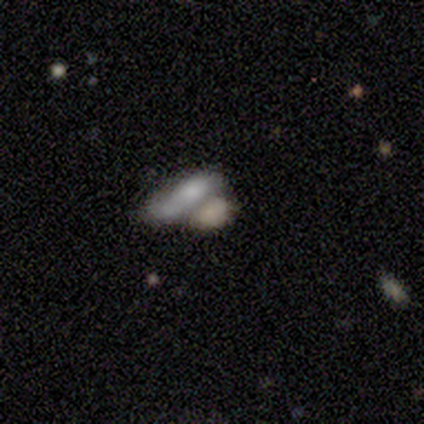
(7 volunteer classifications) smooth 57%, featured or disk 29%, star or artifact 14%. Down the decision tree: how rounded — in between (75%); merging — merger (67%).